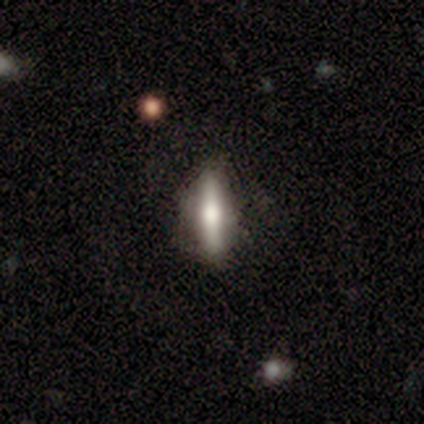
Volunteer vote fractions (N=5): Smooth or featured? 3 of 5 (60%) said featured or disk. Edge-on disk? 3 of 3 (100%) said yes. Edge-on bulge? 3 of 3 (100%) said rounded. Merging? 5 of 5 (100%) said none.